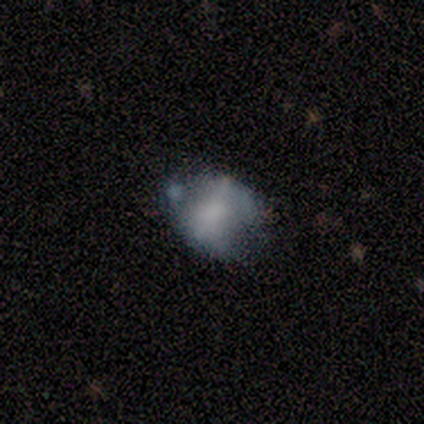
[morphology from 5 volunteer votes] This is likely a smooth galaxy (60%). How rounded: likely in between (67%). Merging: possibly minor disturbance (50%).